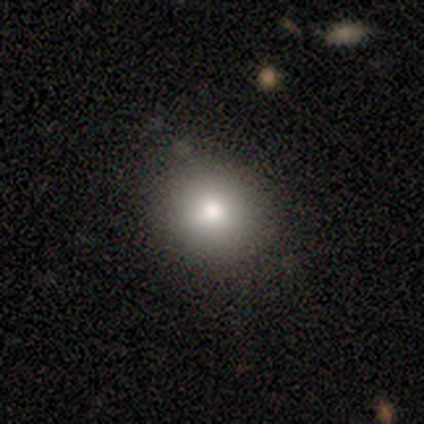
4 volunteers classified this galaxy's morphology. Smooth or featured?
  - smooth: 75% *
  - star or artifact: 25%
  - featured or disk: 0%
How rounded?
  - in between: 67% *
  - round: 33%
  - cigar-shaped: 0%
Merging?
  - none: 100% *
  - minor disturbance: 0%
  - major disturbance: 0%
  - merger: 0%